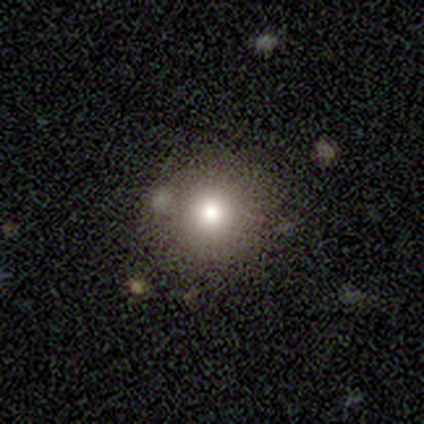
A smooth galaxy with no disk features (100%) that is round (100%).

Vote fractions:
- Smooth or featured? smooth: 100% / featured or disk: 0% / star or artifact: 0%
- How rounded? round: 100% / in between: 0% / cigar-shaped: 0%
- Merging? none: 80% / minor disturbance: 20% / major disturbance: 0% / merger: 0%